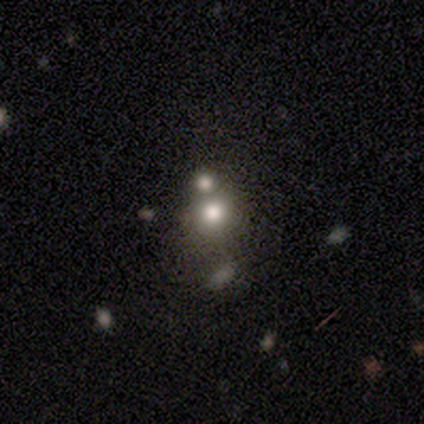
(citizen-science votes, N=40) Volunteers were most divided on "merging": merger: 49%, none: 40%, minor disturbance: 9%, major disturbance: 3%. More confident: smooth or featured — smooth (80%); how rounded — round (78%).